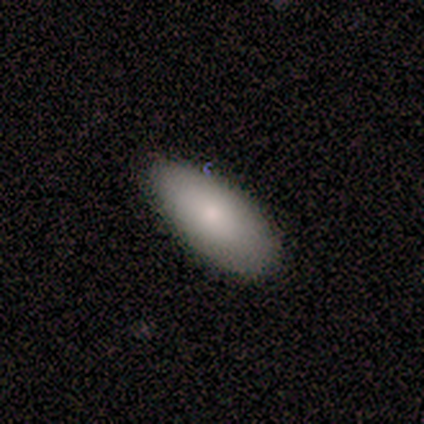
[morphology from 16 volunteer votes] Volunteers were most divided on "merging": none: 53%, minor disturbance: 33%, major disturbance: 7%, merger: 7%. More confident: how rounded — in between (85%); smooth or featured — smooth (81%).